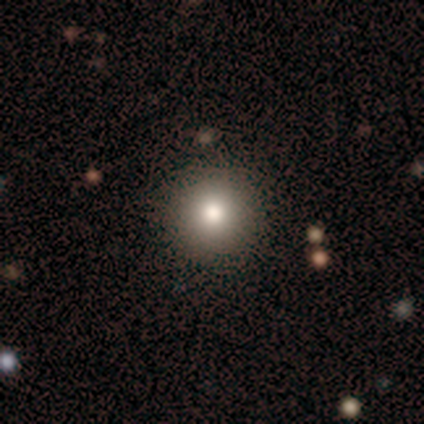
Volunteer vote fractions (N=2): Overall: smooth (100%). How rounded: round (100%). Merging: none (50%, tied with minor disturbance).